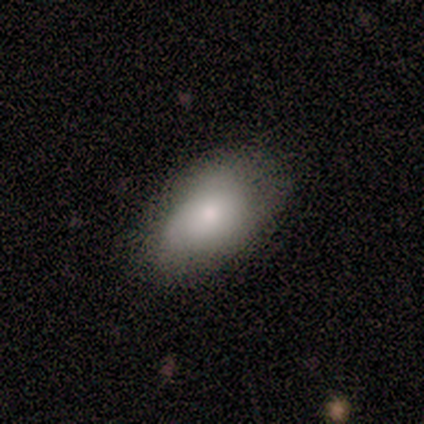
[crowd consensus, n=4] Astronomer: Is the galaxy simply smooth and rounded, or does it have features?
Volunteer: smooth — 75%.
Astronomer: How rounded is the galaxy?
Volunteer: in between — 100%.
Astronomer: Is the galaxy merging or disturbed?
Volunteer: none — 75%.